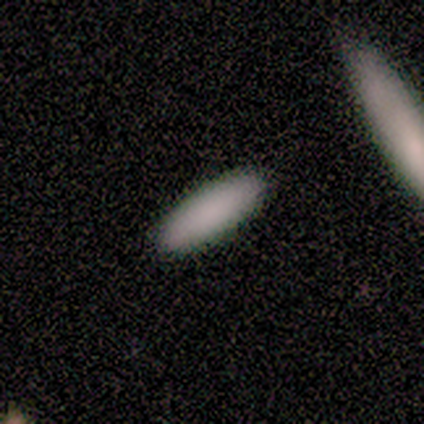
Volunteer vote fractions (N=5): Smooth or featured: smooth — 100%
How rounded: in between — 60% (cigar-shaped — 40%)
Merging: none — 100%